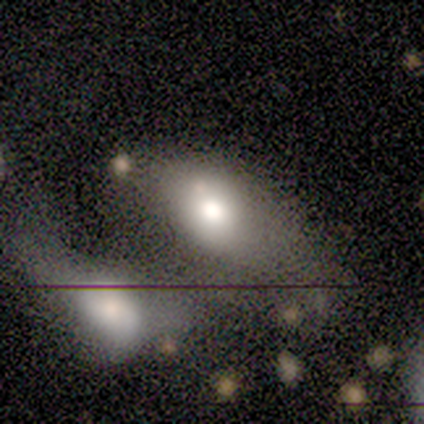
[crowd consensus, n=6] smooth 83%, featured or disk 17%, star or artifact 0%. Down the decision tree: how rounded — in between (60%); merging — merger (50%).